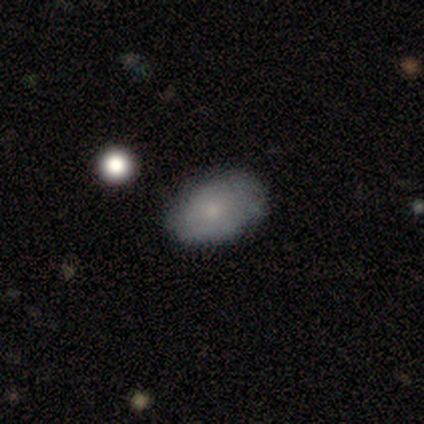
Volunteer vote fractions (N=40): Smooth or featured? 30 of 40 (75%) said smooth. How rounded? 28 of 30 (93%) said in between. Merging? 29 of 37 (78%) said none.